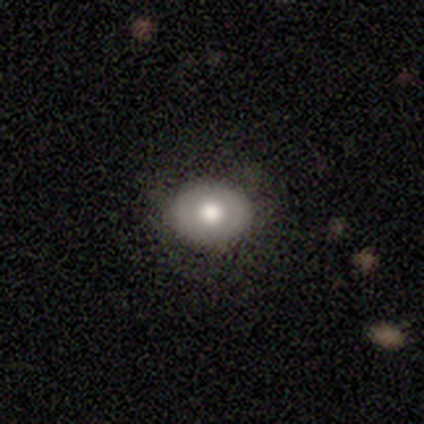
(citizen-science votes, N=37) Volunteers were most divided on "how rounded": round: 68%, in between: 32%, cigar-shaped: 0%. More confident: smooth or featured — smooth (84%); merging — none (81%).